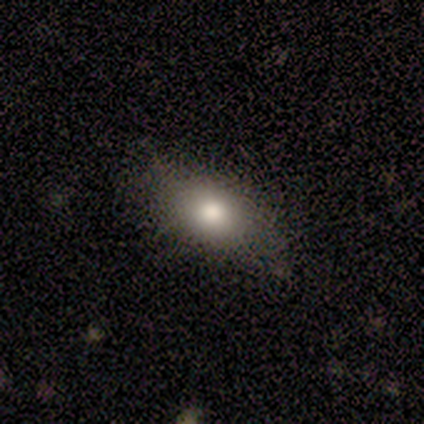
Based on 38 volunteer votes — Overall: smooth (74%). How rounded: in between (75%). Merging: none (49%; minor disturbance 22%).